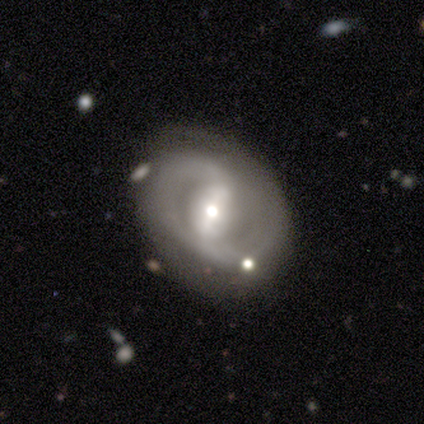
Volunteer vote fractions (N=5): Volunteers were most divided on "bar" (2-way tie): strong: 50%, weak: 50%, no: 0%; "bulge size" (2-way tie): moderate: 50%, small: 50%, dominant: 0%, large: 0%, none: 0%. More confident: smooth or featured — featured or disk (100%); spiral arms — yes (100%); spiral arm count — 2 (100%); edge-on disk — no (80%); merging — none (60%); spiral winding — medium (50%).